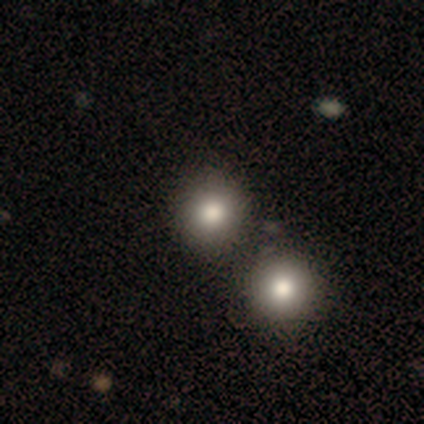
smooth-or-featured: smooth: 77% | star or artifact: 15% | featured or disk: 8%
  how-rounded: round: 100% | in between: 0% | cigar-shaped: 0%
  merging: none: 73% | merger: 27% | minor disturbance: 0% | major disturbance: 0%